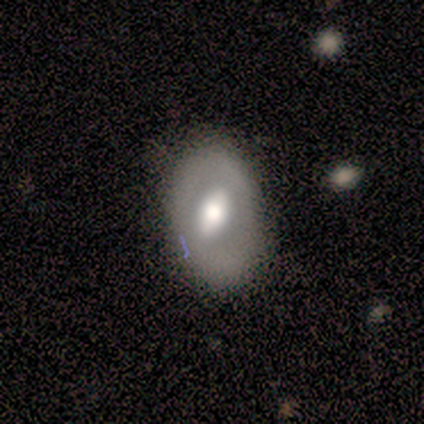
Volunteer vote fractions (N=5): A smooth galaxy with no disk features (60%) that is in between round and cigar-shaped (100%).

Vote fractions:
- Smooth or featured? smooth: 60% / featured or disk: 40% / star or artifact: 0%
- How rounded? in between: 100% / round: 0% / cigar-shaped: 0%
- Merging? minor disturbance: 60% / none: 40% / major disturbance: 0% / merger: 0%